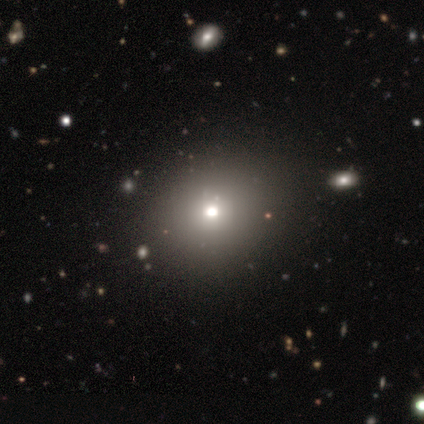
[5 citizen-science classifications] smooth 60%, featured or disk 20%, star or artifact 20%. Down the decision tree: how rounded — round (67%); merging — none (100%).